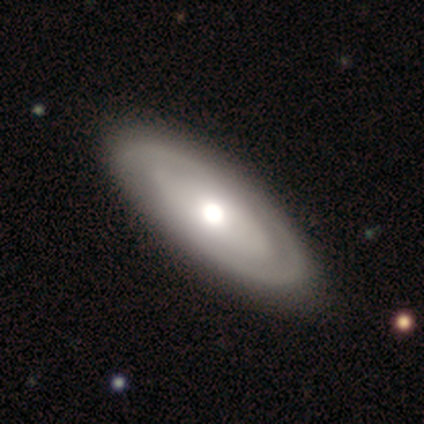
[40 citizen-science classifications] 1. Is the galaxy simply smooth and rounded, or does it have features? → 62% featured or disk, 38% smooth, 0% star or artifact.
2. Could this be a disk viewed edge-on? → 80% no, 20% yes.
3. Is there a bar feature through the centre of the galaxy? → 80% no, 20% strong, 0% weak.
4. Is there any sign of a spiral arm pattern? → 50% yes (tied), 50% no (tied).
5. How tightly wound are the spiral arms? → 60% tight, 30% medium, 10% loose.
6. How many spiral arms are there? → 70% 2, 30% can't tell, 0% 1, 0% 3, 0% 4, 0% more than 4.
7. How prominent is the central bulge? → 65% moderate, 30% large, 5% dominant, 0% small, 0% none.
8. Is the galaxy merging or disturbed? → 60% none, 2% minor disturbance, 2% major disturbance, 0% merger.